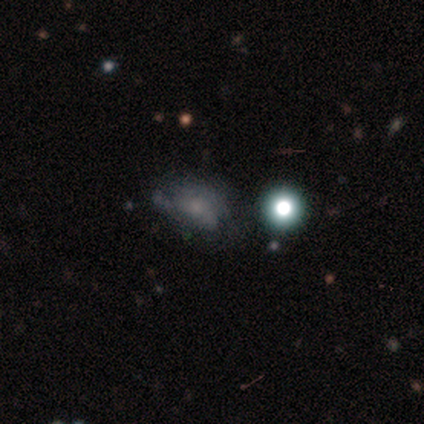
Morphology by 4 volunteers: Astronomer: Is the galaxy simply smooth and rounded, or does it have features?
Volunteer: smooth — 50%.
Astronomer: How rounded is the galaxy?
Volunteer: in between — 100%.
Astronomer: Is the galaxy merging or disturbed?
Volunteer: none — 33%, tied with minor disturbance and merger at 33%.